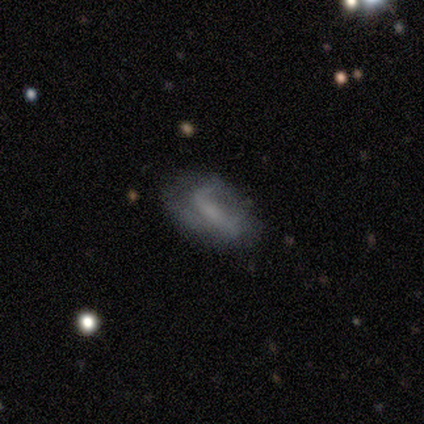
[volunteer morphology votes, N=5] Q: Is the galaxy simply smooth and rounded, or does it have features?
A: featured or disk — 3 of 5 (60%).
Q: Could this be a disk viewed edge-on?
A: no — 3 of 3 (100%).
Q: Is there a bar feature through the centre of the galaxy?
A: strong — 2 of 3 (67%).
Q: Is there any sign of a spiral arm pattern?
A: no — 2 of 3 (67%).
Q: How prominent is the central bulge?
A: moderate — 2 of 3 (67%).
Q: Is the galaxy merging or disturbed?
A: none — 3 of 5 (60%).